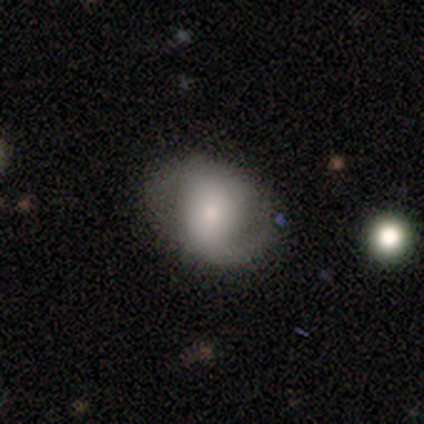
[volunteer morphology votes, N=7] Smooth or featured? featured or disk (71%)
Edge-on disk? no (100%)
Bar? weak (60%)
Spiral arms? yes (100%)
Spiral winding? medium (40%, tied with loose)
Spiral arm count? 2 (100%)
Bulge size? moderate (60%)
Merging? none (83%)